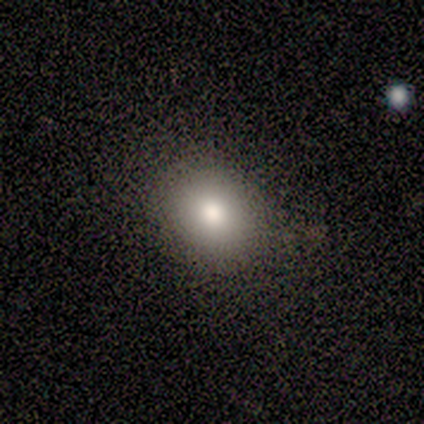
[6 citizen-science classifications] Overall: smooth (83%). How rounded: in between (60%; round 40%). Merging: none (100%).